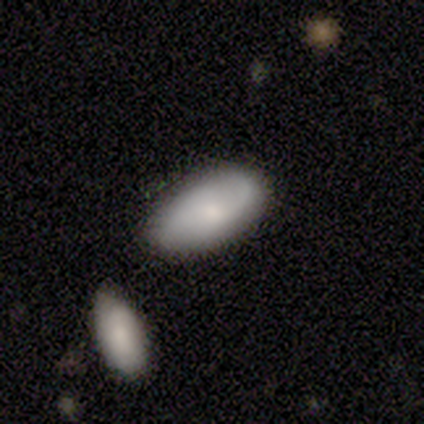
smooth-or-featured: smooth: 60% | featured or disk: 40% | star or artifact: 0%
  how-rounded: in between: 100% | round: 0% | cigar-shaped: 0%
  merging: none: 60% | major disturbance: 20% | merger: 20% | minor disturbance: 0%